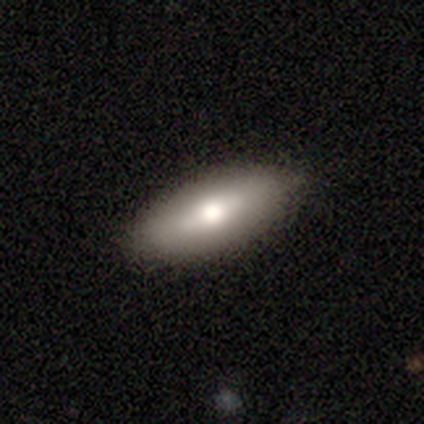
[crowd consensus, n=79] This is likely a smooth galaxy (73%). How rounded: clearly in between (84%). Merging: clearly none (89%).